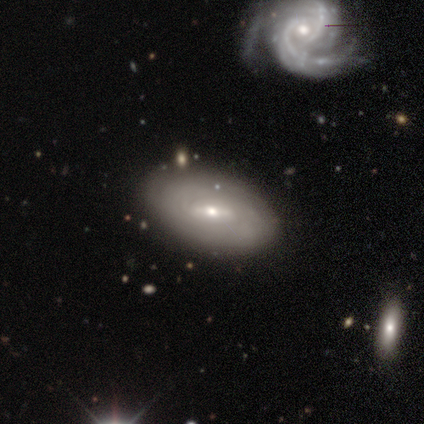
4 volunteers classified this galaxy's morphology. A smooth galaxy with no disk features (50%, tied with featured or disk) that is in between round and cigar-shaped (100%). Merging: none (100%).